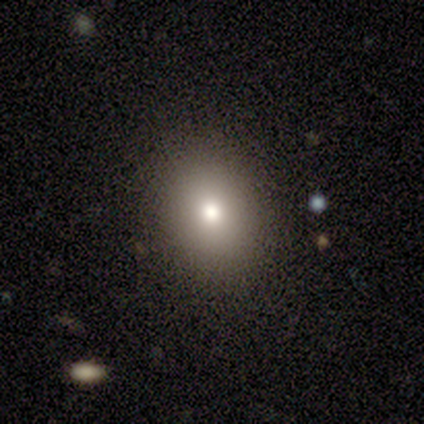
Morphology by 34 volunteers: type=smooth (82%); roundness=in between (64%); merging=none (93%).